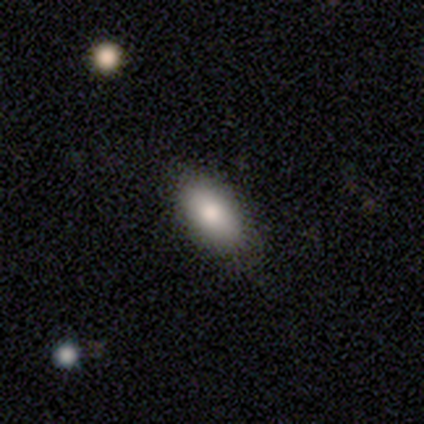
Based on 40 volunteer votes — Smooth or featured? 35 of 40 (88%) said smooth. How rounded? 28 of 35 (80%) said in between. Merging? 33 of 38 (87%) said none.